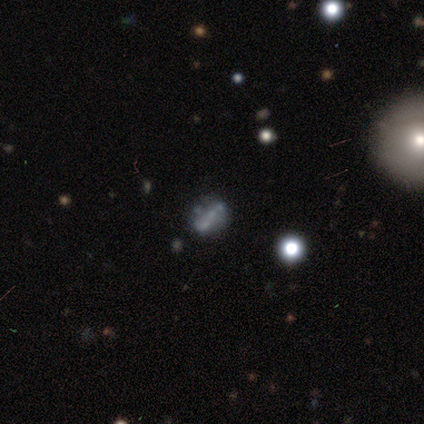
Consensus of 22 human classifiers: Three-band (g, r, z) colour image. It shows a featured or disk galaxy (45%) with no bar (60%), no spiral arms (70%) and no central bulge (80%). Merging: none (69%).